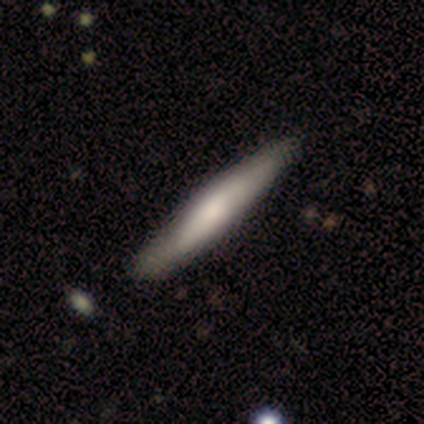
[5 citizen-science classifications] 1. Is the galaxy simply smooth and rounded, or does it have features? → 60% featured or disk, 40% smooth, 0% star or artifact.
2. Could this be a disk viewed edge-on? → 100% yes, 0% no.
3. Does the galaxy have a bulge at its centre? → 67% none, 33% rounded, 0% boxy.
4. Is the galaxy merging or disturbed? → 100% none, 0% minor disturbance, 0% major disturbance, 0% merger.